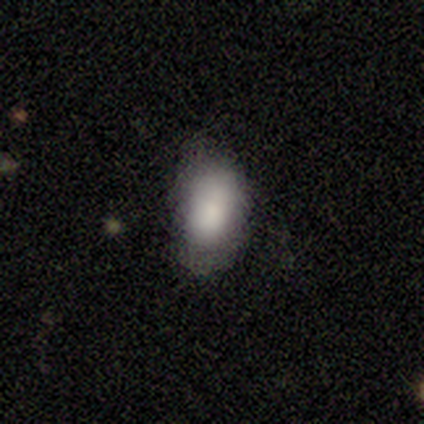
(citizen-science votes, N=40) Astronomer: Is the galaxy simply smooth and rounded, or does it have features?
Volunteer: smooth — 92%.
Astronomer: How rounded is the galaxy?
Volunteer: in between — 95%.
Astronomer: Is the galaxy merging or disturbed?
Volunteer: none — 56% (runner-up: minor disturbance, 36%).